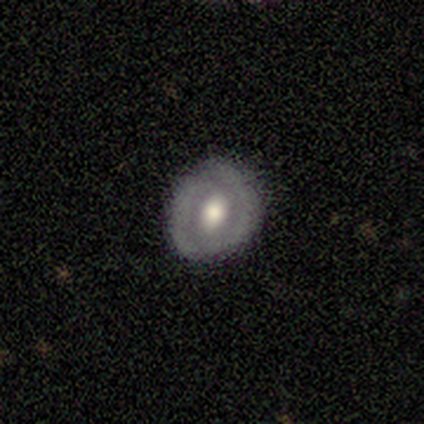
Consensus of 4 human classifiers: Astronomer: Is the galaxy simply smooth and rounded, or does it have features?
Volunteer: featured or disk — 75%.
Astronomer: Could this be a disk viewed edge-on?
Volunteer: no — 100%.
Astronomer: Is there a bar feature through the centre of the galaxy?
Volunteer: no — 67%.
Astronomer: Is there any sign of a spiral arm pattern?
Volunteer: no — 100%.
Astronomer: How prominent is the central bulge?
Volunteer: moderate — 67%.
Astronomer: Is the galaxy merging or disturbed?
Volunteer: none — 100%.